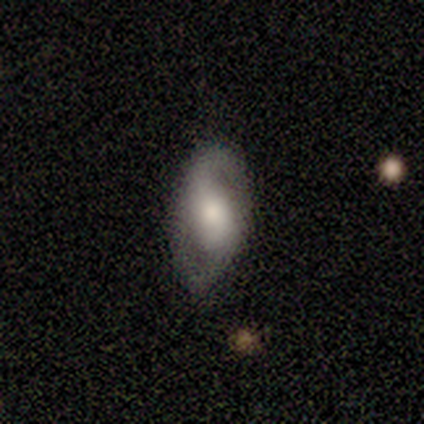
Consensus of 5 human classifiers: smooth-or-featured: featured or disk: 60% | smooth: 40% | star or artifact: 0%
  disk-edge-on: no: 67% | yes: 33%
    bar: strong: 50% (tied) | no: 50% (tied) | weak: 0%
    has-spiral-arms: yes: 100% | no: 0%
      spiral-winding: loose: 100% | tight: 0% | medium: 0%
      spiral-arm-count: 2: 100% | 1: 0% | 3: 0% | 4: 0% | more than 4: 0% | can't tell: 0%
    bulge-size: large: 50% (tied) | moderate: 50% (tied) | dominant: 0% | small: 0% | none: 0%
  merging: none: 40% (tied) | minor disturbance: 40% (tied) | merger: 20% | major disturbance: 0%